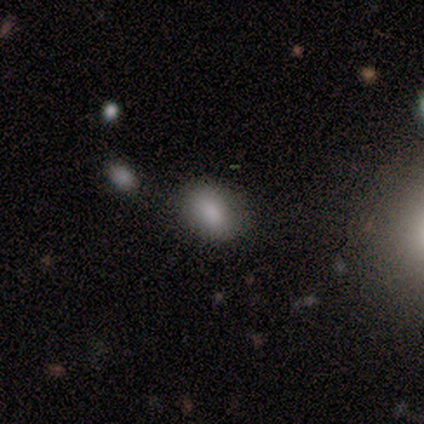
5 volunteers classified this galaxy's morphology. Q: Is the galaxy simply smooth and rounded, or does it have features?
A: smooth — 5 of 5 (100%).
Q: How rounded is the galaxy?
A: in between — 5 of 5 (100%).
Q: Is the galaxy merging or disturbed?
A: none — 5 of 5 (100%).